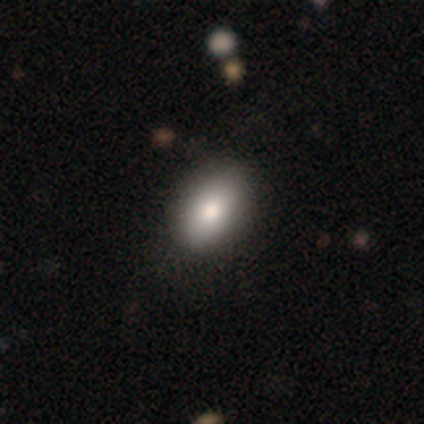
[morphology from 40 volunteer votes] Smooth or featured? 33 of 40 (82%) said smooth. How rounded? 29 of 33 (88%) said in between. Merging? 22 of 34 (65%) said none.